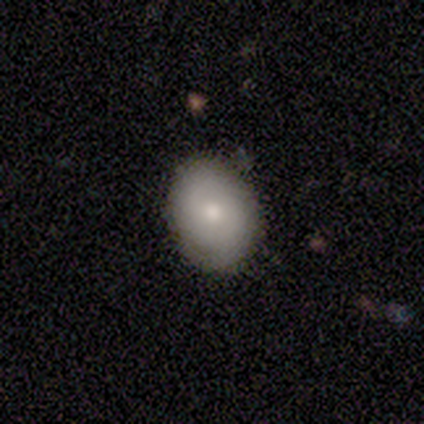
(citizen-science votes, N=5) This is likely a smooth galaxy (60%). How rounded: clearly in between (100%). Merging: clearly none (100%).